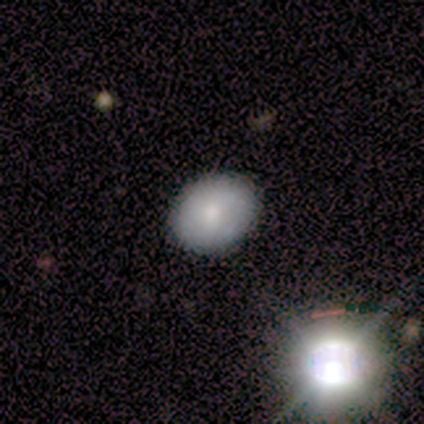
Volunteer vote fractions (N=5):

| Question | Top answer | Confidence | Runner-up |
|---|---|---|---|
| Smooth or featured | featured or disk | 40% | tied: star or artifact (40%) |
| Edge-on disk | no | 100% | — |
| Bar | no | 100% | — |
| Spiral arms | yes | 50% | tied: no (50%) |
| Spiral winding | tight | 100% | — |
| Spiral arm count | can't tell | 100% | — |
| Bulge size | moderate | 100% | — |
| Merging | none | 100% | — |